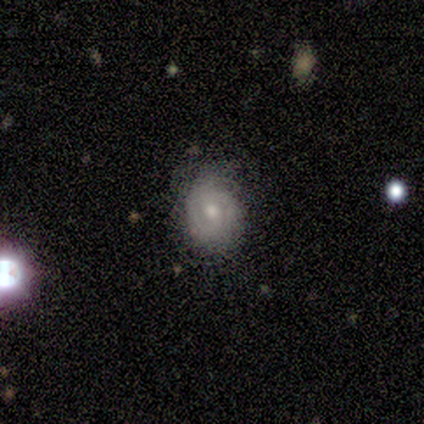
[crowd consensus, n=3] smooth_or_featured: featured or disk (p=0.67) [alt: star or artifact p=0.33]
disk_edge_on: no (p=1.00)
bar: weak (p=1.00)
has_spiral_arms: yes (p=1.00)
spiral_winding: tight (p=0.50) [tied with: medium p=0.50]
spiral_arm_count: can't tell (p=1.00)
bulge_size: moderate (p=1.00)
merging: none (p=0.50) [tied with: minor disturbance p=0.50]